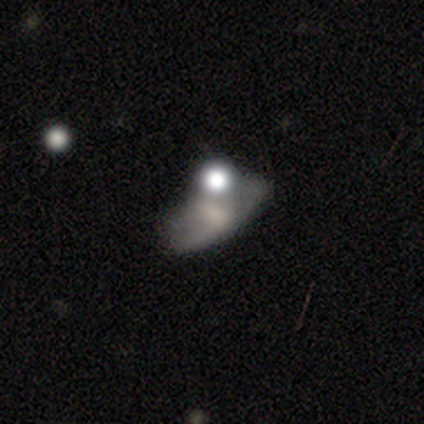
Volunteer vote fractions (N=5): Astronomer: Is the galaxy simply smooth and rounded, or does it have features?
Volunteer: smooth — 60% (runner-up: featured or disk, 40%).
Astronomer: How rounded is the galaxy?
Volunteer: in between — 67%.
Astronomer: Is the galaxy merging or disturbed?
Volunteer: none — 40%, tied with merger at 40%.